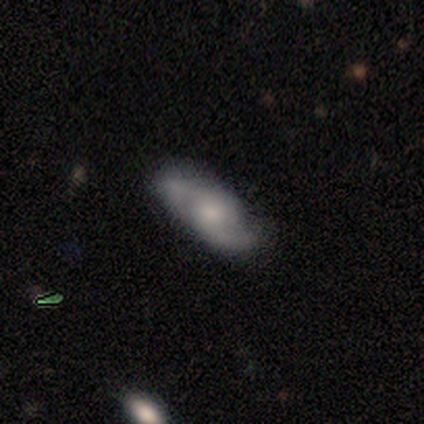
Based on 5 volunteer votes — A featured or disk galaxy (100%) with no bar (100%), 2 (100%) tight (40%, tied with loose) spiral arms (100%) and a small central bulge (60%). Merging: none (80%).